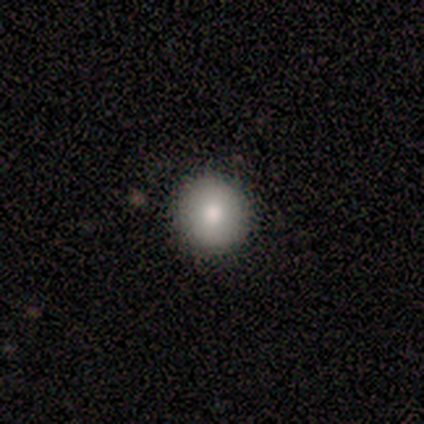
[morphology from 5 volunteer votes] Smooth or featured: smooth — 80% (featured or disk — 20%)
How rounded: round — 100%
Merging: none — 80% (minor disturbance — 20%)